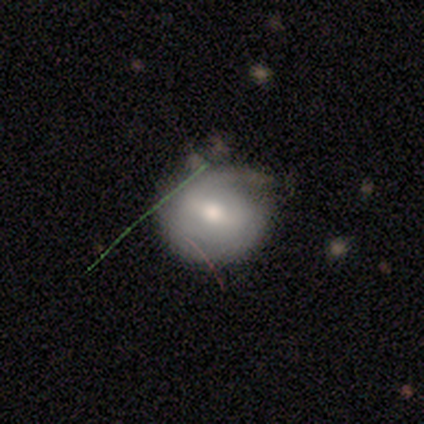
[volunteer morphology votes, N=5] Overall: smooth (80%). How rounded: round (100%). Merging: none (60%; minor disturbance 20%).